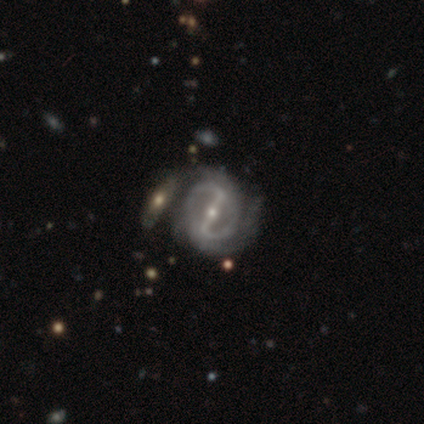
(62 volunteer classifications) Q: Smooth or featured?
A: featured or disk (85%); runner-up: smooth (10%)
Q: Edge-on disk?
A: no (98%); runner-up: yes (2%)
Q: Bar?
A: strong (88%); runner-up: weak (6%)
Q: Spiral arms?
A: yes (85%); runner-up: no (15%)
Q: Spiral winding?
A: medium (41%); runner-up: tight (36%)
Q: Spiral arm count?
A: 2 (77%); runner-up: can't tell (14%)
Q: Bulge size?
A: small (62%); runner-up: moderate (31%)
Q: Merging?
A: none (51%); runner-up: minor disturbance (22%)